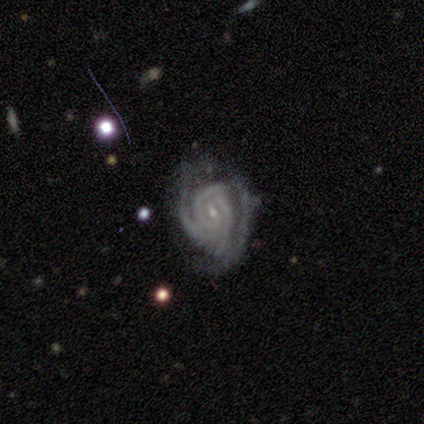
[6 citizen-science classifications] Smooth or featured?
  - featured or disk: 100% *
  - smooth: 0%
  - star or artifact: 0%
Edge-on disk?
  - no: 100% *
  - yes: 0%
Bar?
  - weak: 50% * (tied)
  - no: 50% * (tied)
  - strong: 0%
Spiral arms?
  - yes: 83% *
  - no: 17%
Spiral winding?
  - tight: 80% *
  - medium: 20%
  - loose: 0%
Spiral arm count?
  - 3: 60% *
  - 2: 20%
  - can't tell: 20%
  - 1: 0%
  - 4: 0%
  - more than 4: 0%
Bulge size?
  - small: 100% *
  - dominant: 0%
  - large: 0%
  - moderate: 0%
  - none: 0%
Merging?
  - none: 67% *
  - minor disturbance: 17%
  - major disturbance: 17%
  - merger: 0%